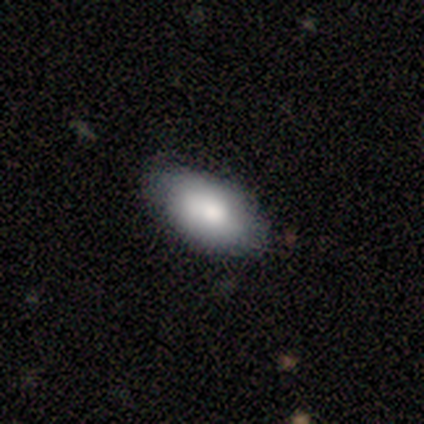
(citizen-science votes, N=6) Smooth or featured: smooth — 83% (featured or disk — 17%)
How rounded: in between — 100%
Merging: none — 67% (minor disturbance — 33%)